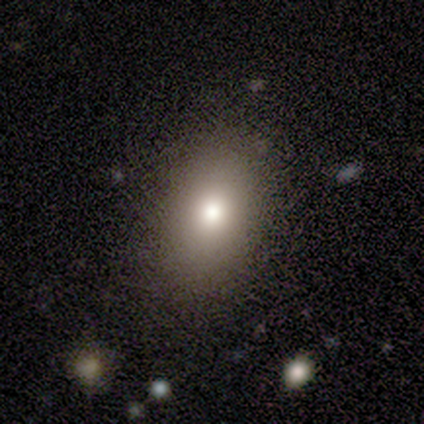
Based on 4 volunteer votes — Q: Smooth or featured?
A: smooth (50%); tied with: star or artifact (50%)
Q: How rounded?
A: in between (100%)
Q: Merging?
A: none (50%); tied with: minor disturbance (50%)